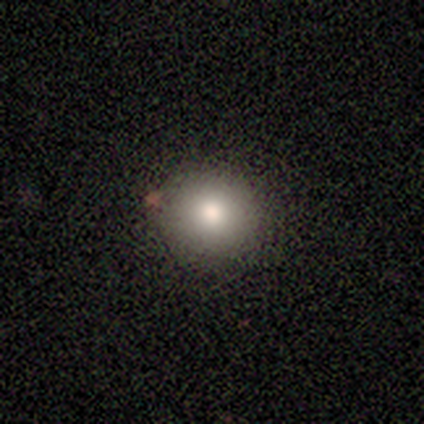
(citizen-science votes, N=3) Morphology: type=smooth (100%); roundness=round (100%); merging=none (100%).